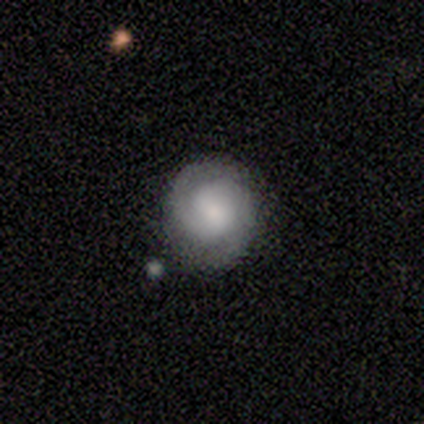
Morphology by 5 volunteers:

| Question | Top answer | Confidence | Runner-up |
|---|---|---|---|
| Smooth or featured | smooth | 60% | featured or disk (40%) |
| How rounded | round | 67% | in between (33%) |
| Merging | none | 100% | — |